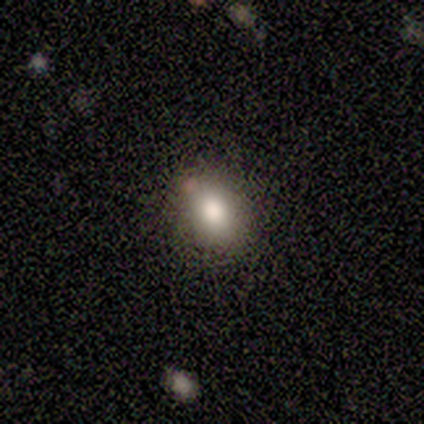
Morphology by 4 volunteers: A smooth galaxy with no disk features (75%) that is in between round and cigar-shaped (100%). Merging: none (100%).